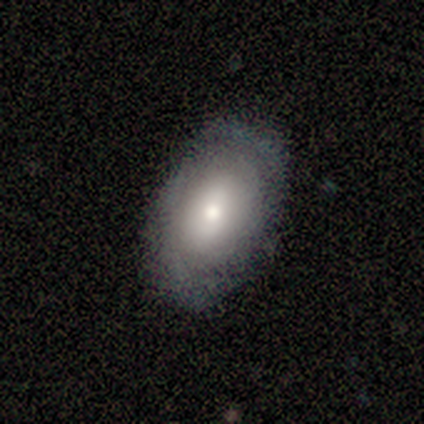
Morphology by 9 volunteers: smooth-or-featured: featured or disk: 67% | smooth: 22% | star or artifact: 11%
  disk-edge-on: no: 83% | yes: 17%
    bar: no: 80% | strong: 20% | weak: 0%
    has-spiral-arms: yes: 60% | no: 40%
      spiral-winding: tight: 67% | medium: 33% | loose: 0%
      spiral-arm-count: 2: 100% | 1: 0% | 3: 0% | 4: 0% | more than 4: 0% | can't tell: 0%
    bulge-size: large: 60% | moderate: 40% | dominant: 0% | small: 0% | none: 0%
  merging: none: 88% | major disturbance: 12% | minor disturbance: 0% | merger: 0%